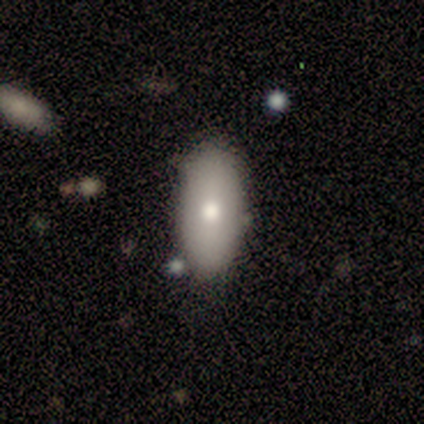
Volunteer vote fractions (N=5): smooth_or_featured: smooth (p=0.80) [alt: featured or disk p=0.20]
how_rounded: in between (p=1.00)
merging: none (p=0.40) [tied with: minor disturbance p=0.40]